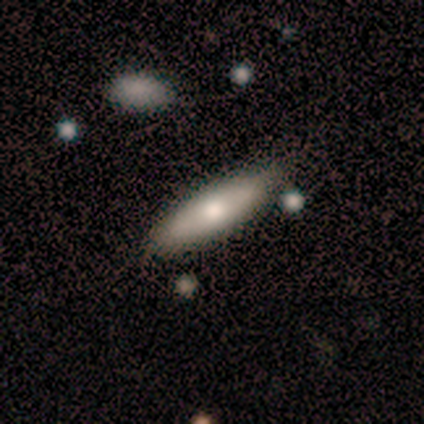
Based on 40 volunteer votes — Smooth or featured? 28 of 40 (70%) said smooth. How rounded? 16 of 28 (57%) said cigar-shaped. Merging? 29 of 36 (81%) said none.